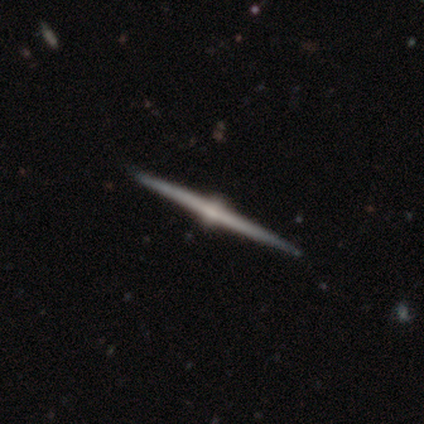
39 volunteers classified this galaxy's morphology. This appears to be a featured or disk galaxy (97%) viewed edge-on (100%) with a rounded central bulge (100%). Merging: none (56%).